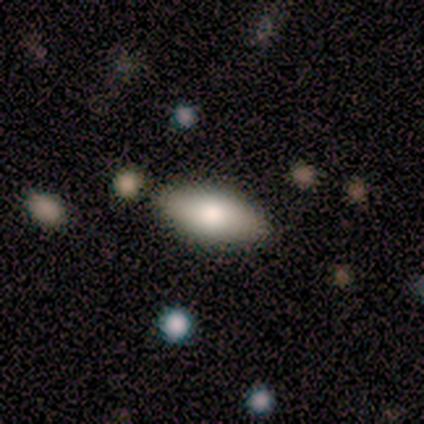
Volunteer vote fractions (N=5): Smooth or featured? 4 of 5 (80%) said smooth. How rounded? 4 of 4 (100%) said in between. Merging? 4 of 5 (80%) said none.